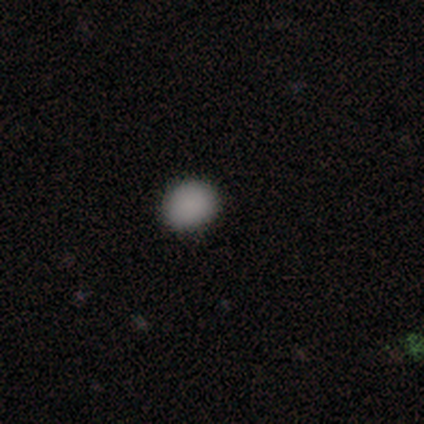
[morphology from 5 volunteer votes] Smooth or featured? 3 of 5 (60%) said smooth. How rounded? 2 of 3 (67%) said in between. Merging? 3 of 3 (100%) said none.